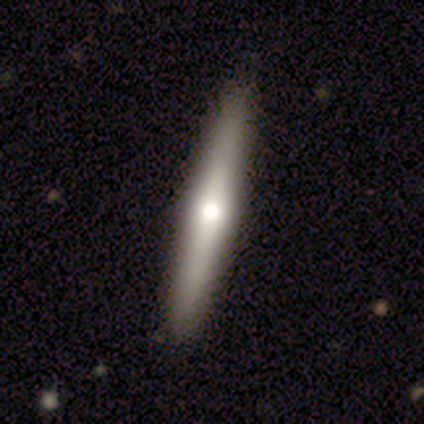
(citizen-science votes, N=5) Volunteers were most divided on "smooth or featured": featured or disk: 80%, smooth: 20%, star or artifact: 0%. More confident: edge-on disk — yes (100%); edge-on bulge — rounded (100%); merging — none (80%).